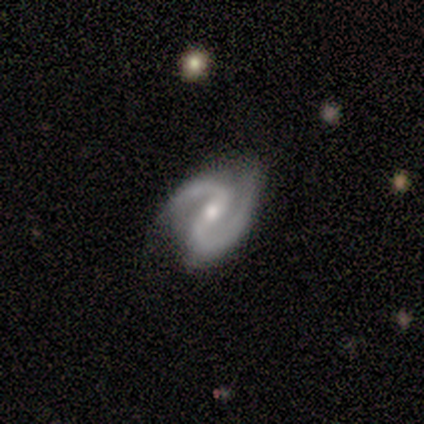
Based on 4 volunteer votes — Volunteers were most divided on "bulge size": moderate: 67%, small: 33%, dominant: 0%, large: 0%, none: 0%. More confident: edge-on disk — no (100%); bar — no (100%); spiral arms — yes (100%); spiral winding — medium (100%); spiral arm count — 2 (100%); smooth or featured — featured or disk (75%); merging — none (75%).